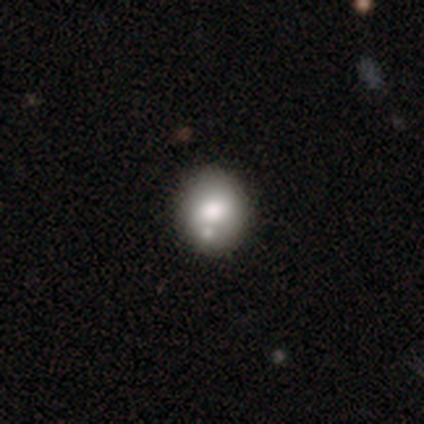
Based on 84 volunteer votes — Smooth or featured?
  - smooth: 71% *
  - featured or disk: 21%
  - star or artifact: 7%
How rounded?
  - round: 67% *
  - in between: 33%
  - cigar-shaped: 0%
Merging?
  - none: 69% *
  - merger: 18%
  - minor disturbance: 8%
  - major disturbance: 5%